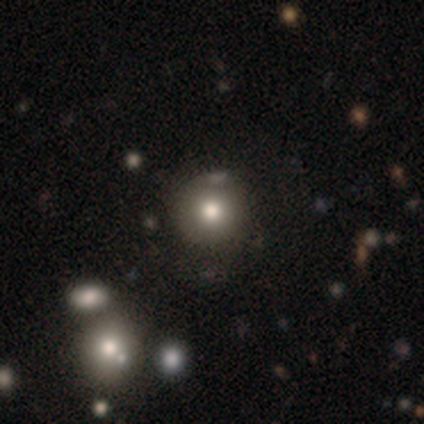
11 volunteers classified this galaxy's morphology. A smooth galaxy with no disk features (64%) that is round (100%).

Vote fractions:
- Smooth or featured? smooth: 64% / star or artifact: 27% / featured or disk: 9%
- How rounded? round: 100% / in between: 0% / cigar-shaped: 0%
- Merging? none: 62% / merger: 25% / minor disturbance: 12% / major disturbance: 0%